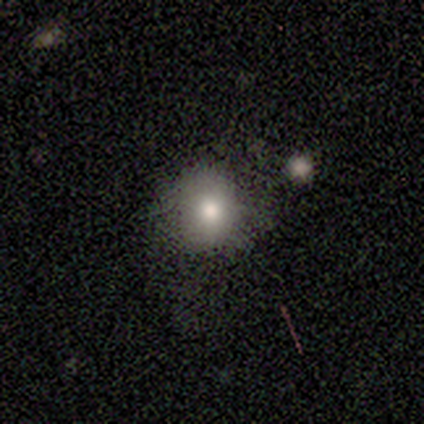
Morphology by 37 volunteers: Overall: smooth (78%). How rounded: round (86%). Merging: none (64%; minor disturbance 25%).